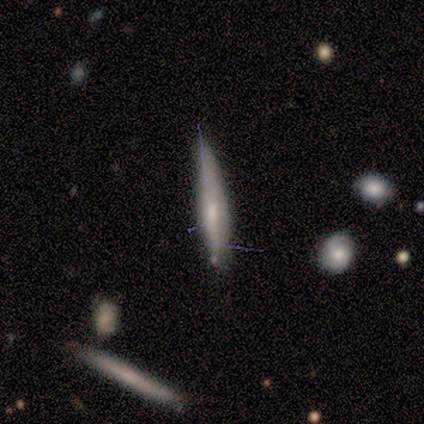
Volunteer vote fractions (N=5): This appears to be a smooth galaxy with no disk features (80%) that is cigar-shaped (100%). Merging: none (40%, tied with minor disturbance).